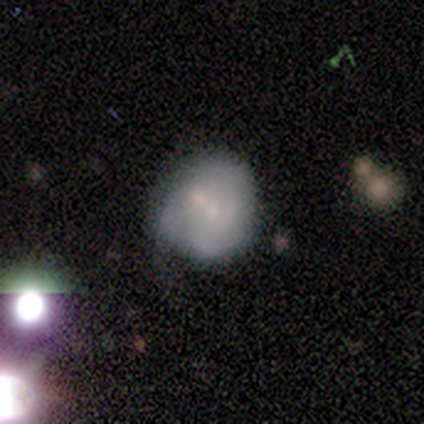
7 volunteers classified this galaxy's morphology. Smooth or featured: smooth — 57% (featured or disk — 43%)
How rounded: round — 50% (tied with in between — 50%)
Merging: merger — 43% (major disturbance — 29%)